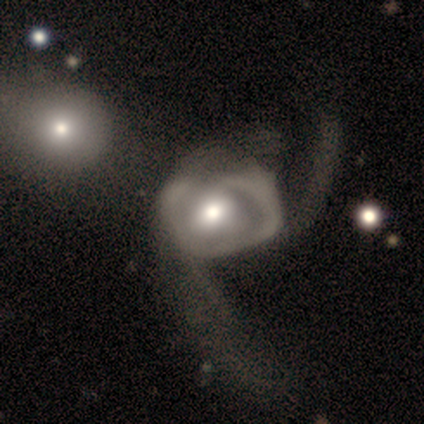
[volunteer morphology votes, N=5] featured or disk 100%, smooth 0%, star or artifact 0%. Down the decision tree: edge-on disk — no (100%); bar — no (80%); spiral arms — no (60%); bulge size — moderate (80%); merging — major disturbance (100%).